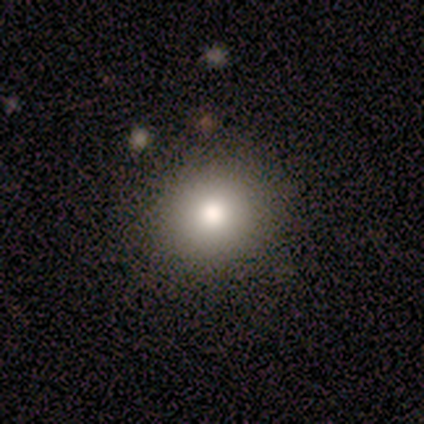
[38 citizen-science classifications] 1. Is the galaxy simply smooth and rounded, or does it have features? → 79% smooth, 13% featured or disk, 8% star or artifact.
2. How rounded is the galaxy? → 93% round, 7% in between, 0% cigar-shaped.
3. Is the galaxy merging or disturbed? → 91% none, 3% minor disturbance, 3% major disturbance, 3% merger.